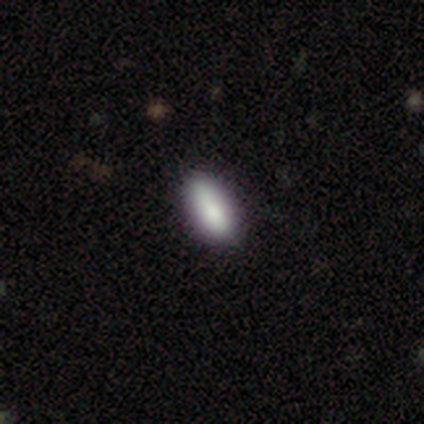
Smooth or featured?
  - smooth: 100% *
  - featured or disk: 0%
  - star or artifact: 0%
How rounded?
  - in between: 75% *
  - cigar-shaped: 25%
  - round: 0%
Merging?
  - none: 50% *
  - minor disturbance: 25%
  - major disturbance: 25%
  - merger: 0%